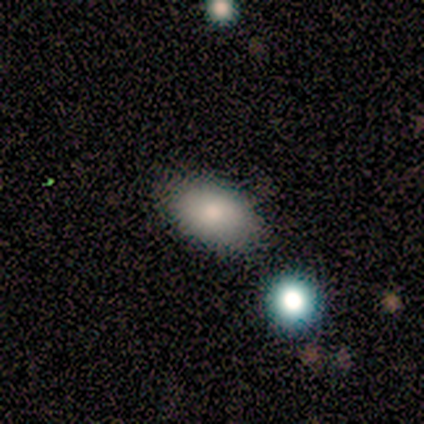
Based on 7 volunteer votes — A smooth galaxy with no disk features (86%) that is in between round and cigar-shaped (100%). Merging: none (100%).